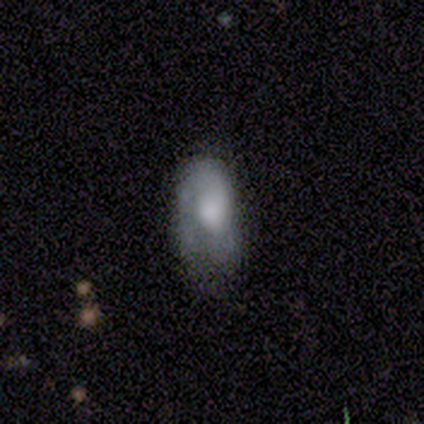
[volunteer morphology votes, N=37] This is possibly a smooth galaxy (57%). How rounded: clearly in between (81%). Merging: possibly none (47%).